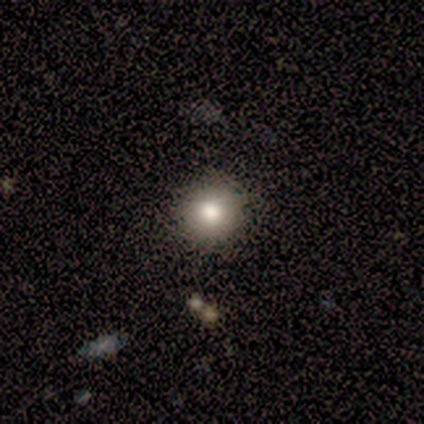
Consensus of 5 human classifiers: Morphology: type=smooth (80%); roundness=round (100%); merging=none (100%).